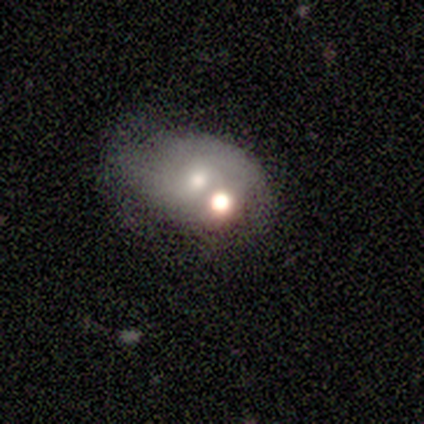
smooth-or-featured: featured or disk: 75% | smooth: 25% | star or artifact: 0%
  disk-edge-on: no: 100% | yes: 0%
    bar: no: 100% | strong: 0% | weak: 0%
    has-spiral-arms: no: 67% | yes: 33%
    bulge-size: moderate: 100% | dominant: 0% | large: 0% | small: 0% | none: 0%
  merging: minor disturbance: 50% (tied) | merger: 50% (tied) | none: 0% | major disturbance: 0%